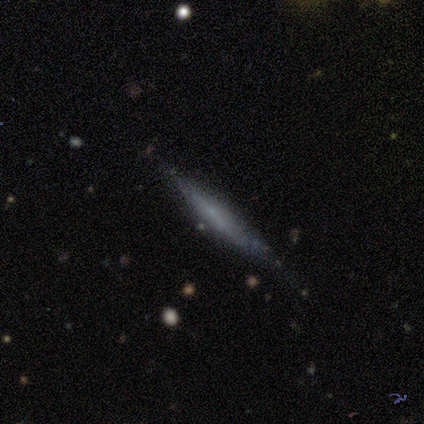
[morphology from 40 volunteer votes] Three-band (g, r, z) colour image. It shows a featured or disk galaxy (75%) viewed edge-on (83%) with no central bulge (68%). Merging: none (74%).